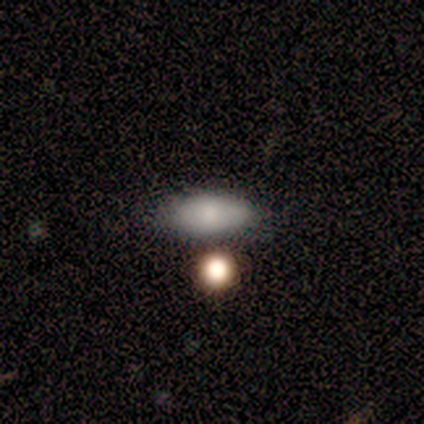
smooth_or_featured: smooth (p=1.00)
how_rounded: in between (p=0.80) [alt: round p=0.20]
merging: none (p=0.80) [alt: minor disturbance p=0.20]